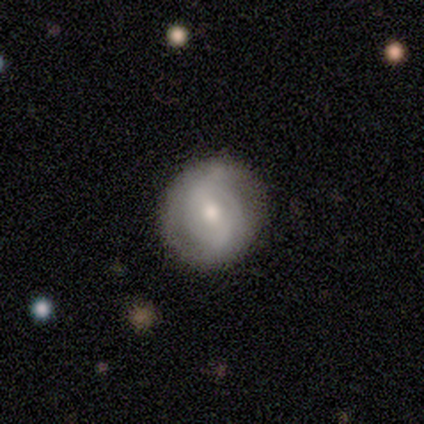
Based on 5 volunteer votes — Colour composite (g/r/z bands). It shows a featured or disk galaxy (80%) with a weak bar (75%), 2 (100%) tight (100%) spiral arms (50%, tied with no) and a moderate central bulge (50%). Merging: none (80%).